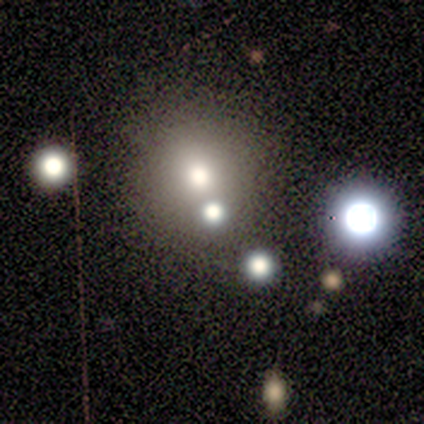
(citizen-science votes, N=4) Overall: star or artifact (75%).